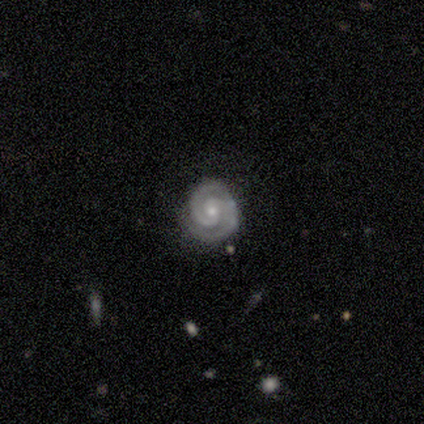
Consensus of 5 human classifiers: Smooth or featured?
  - featured or disk: 100% *
  - smooth: 0%
  - star or artifact: 0%
Edge-on disk?
  - no: 100% *
  - yes: 0%
Bar?
  - strong: 40% * (tied)
  - weak: 40% * (tied)
  - no: 20%
Spiral arms?
  - yes: 100% *
  - no: 0%
Spiral winding?
  - tight: 100% *
  - medium: 0%
  - loose: 0%
Spiral arm count?
  - 2: 100% *
  - 1: 0%
  - 3: 0%
  - 4: 0%
  - more than 4: 0%
  - can't tell: 0%
Bulge size?
  - moderate: 60% *
  - small: 40%
  - dominant: 0%
  - large: 0%
  - none: 0%
Merging?
  - none: 80% *
  - minor disturbance: 20%
  - major disturbance: 0%
  - merger: 0%